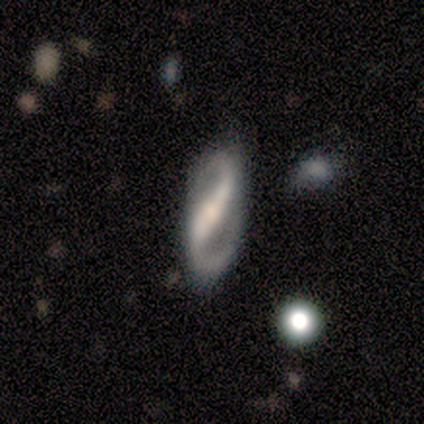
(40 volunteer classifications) Overall: featured or disk (90%). Edge-on disk: no (89%). Bar: strong (75%). Spiral arms: yes (100%). Spiral arm count: 2 (100%). Spiral winding: medium (53%; loose 38%). Bulge size: moderate (44%; small 31%). Merging: none (82%).